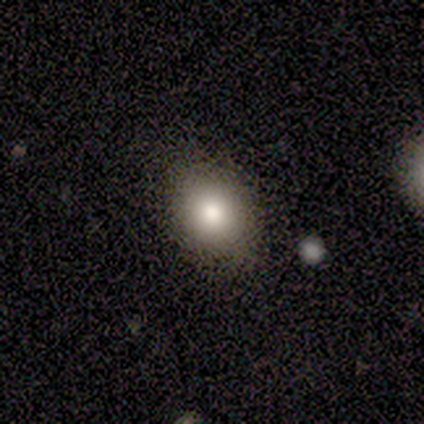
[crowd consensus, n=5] Smooth or featured? smooth (80%)
How rounded? round (50%, tied with in between)
Merging? none (100%)